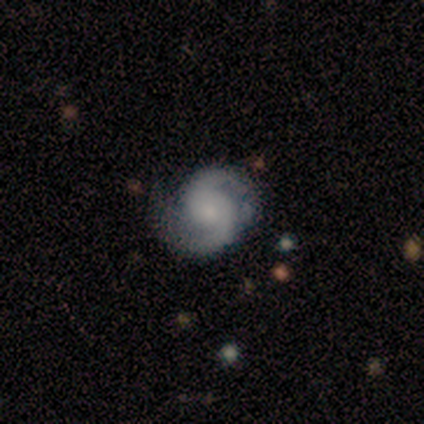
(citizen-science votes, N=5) A featured or disk galaxy (100%) with a weak bar (80%), 2 (100%) tight (60%) spiral arms (100%) and a small central bulge (80%).

Vote fractions:
- Smooth or featured? featured or disk: 100% / smooth: 0% / star or artifact: 0%
- Edge-on disk? no: 100% / yes: 0%
- Bar? weak: 80% / no: 20% / strong: 0%
- Spiral arms? yes: 100% / no: 0%
- Spiral winding? tight: 60% / medium: 20% / loose: 20%
- Spiral arm count? 2: 100% / 1: 0% / 3: 0% / 4: 0% / more than 4: 0% / can't tell: 0%
- Bulge size? small: 80% / moderate: 20% / dominant: 0% / large: 0% / none: 0%
- Merging? none: 80% / minor disturbance: 20% / major disturbance: 0% / merger: 0%